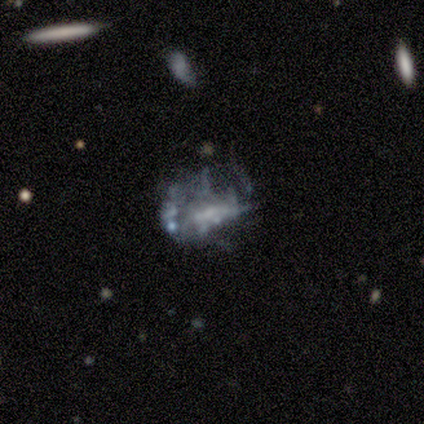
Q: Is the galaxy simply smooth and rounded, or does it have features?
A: featured or disk — 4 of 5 (80%).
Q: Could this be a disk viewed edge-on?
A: no — 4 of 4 (100%).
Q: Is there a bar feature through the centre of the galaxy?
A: no — 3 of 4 (75%).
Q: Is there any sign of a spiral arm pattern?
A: no — 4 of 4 (100%).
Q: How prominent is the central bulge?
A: none — 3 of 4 (75%).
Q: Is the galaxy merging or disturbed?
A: none — 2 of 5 (40%, tied with major disturbance).